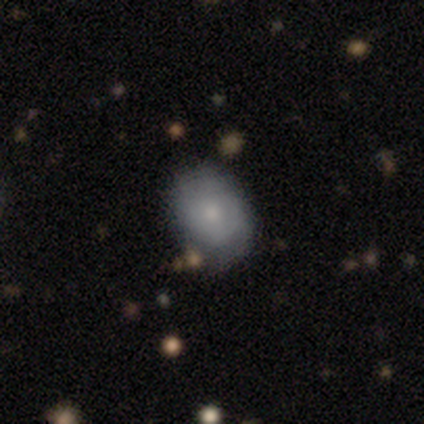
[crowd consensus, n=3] smooth 100%, featured or disk 0%, star or artifact 0%. Down the decision tree: how rounded — in between (67%); merging — minor disturbance (67%).